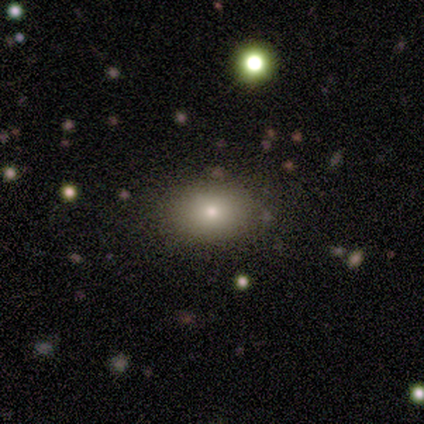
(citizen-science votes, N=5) smooth-or-featured: smooth: 40% (tied) | star or artifact: 40% (tied) | featured or disk: 20%
  how-rounded: in between: 100% | round: 0% | cigar-shaped: 0%
  merging: none: 67% | minor disturbance: 33% | major disturbance: 0% | merger: 0%